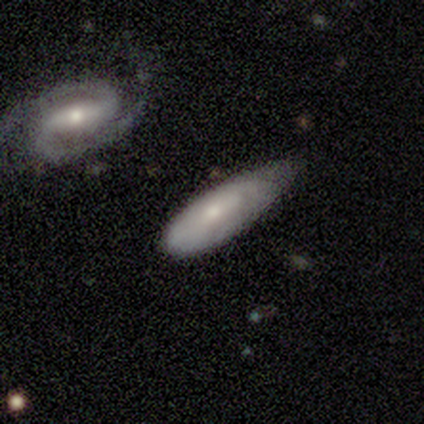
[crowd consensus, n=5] smooth_or_featured: smooth (p=0.60) [alt: featured or disk p=0.20]
how_rounded: in between (p=0.67) [alt: cigar-shaped p=0.33]
merging: none (p=0.50) [tied with: minor disturbance p=0.50]